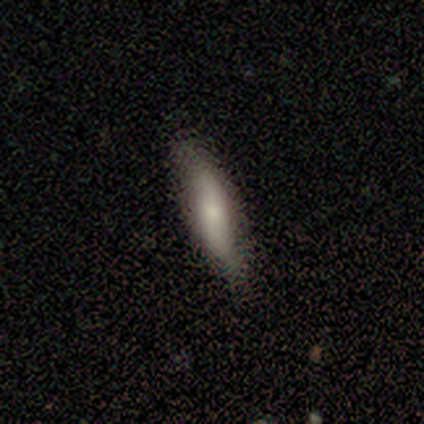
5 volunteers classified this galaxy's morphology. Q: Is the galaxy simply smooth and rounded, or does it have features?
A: smooth — 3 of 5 (60%).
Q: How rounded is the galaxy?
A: in between — 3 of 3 (100%).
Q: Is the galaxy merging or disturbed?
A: none — 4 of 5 (80%).